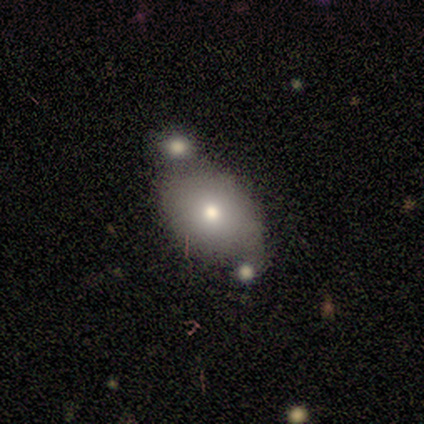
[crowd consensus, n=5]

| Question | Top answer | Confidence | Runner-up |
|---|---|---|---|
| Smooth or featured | smooth | 40% | tied: star or artifact (40%) |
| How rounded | round | 100% | — |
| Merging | merger | 100% | — |